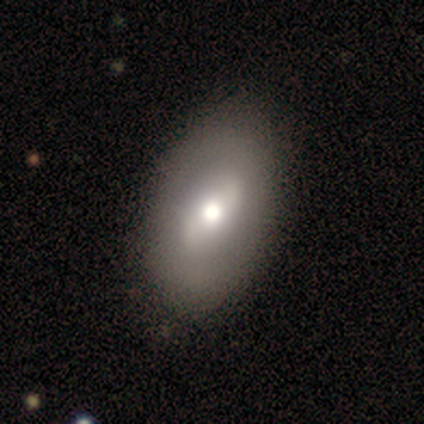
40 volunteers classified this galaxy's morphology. Smooth or featured: featured or disk — 62% (smooth — 38%)
Edge-on disk: no — 100%
Bar: weak — 48% (strong — 28%)
Spiral arms: no — 72% (yes — 28%)
Bulge size: moderate — 72% (large — 20%)
Merging: none — 55% (minor disturbance — 5%)